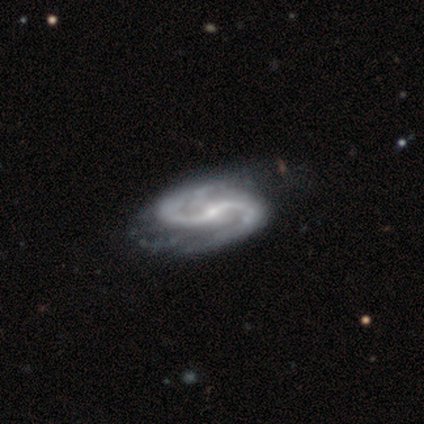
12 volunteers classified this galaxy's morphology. A featured or disk galaxy (100%) with a weak bar (75%), 2 (92%) medium (67%) spiral arms (100%) and a small central bulge (67%). Merging: none (67%).